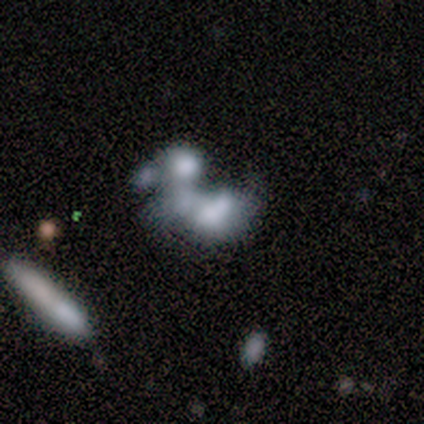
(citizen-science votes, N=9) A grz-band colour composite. It shows a featured or disk galaxy (44%) with no bar (100%), no spiral arms (100%) and a dominant central bulge (25%, tied with large, moderate and none). Merging: merger (71%).